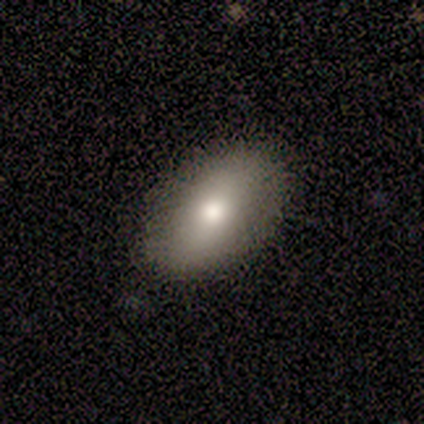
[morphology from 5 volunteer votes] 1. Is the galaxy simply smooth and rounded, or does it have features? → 100% smooth, 0% featured or disk, 0% star or artifact.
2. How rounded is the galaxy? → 80% in between, 20% cigar-shaped, 0% round.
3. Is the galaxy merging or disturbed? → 80% none, 20% major disturbance, 0% minor disturbance, 0% merger.